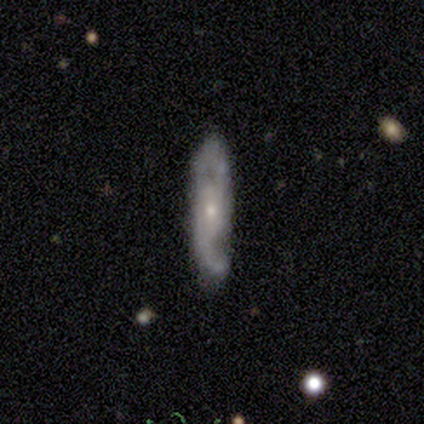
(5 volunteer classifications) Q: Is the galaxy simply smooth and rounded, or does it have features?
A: featured or disk — 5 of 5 (100%).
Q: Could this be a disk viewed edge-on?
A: no — 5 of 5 (100%).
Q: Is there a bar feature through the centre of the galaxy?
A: no — 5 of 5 (100%).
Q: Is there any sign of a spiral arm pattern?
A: yes — 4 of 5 (80%).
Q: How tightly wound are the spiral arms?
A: medium — 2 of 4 (50%).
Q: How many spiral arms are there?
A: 2 — 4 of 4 (100%).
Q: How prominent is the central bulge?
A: small — 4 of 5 (80%).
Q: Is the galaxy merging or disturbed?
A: none — 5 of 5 (100%).